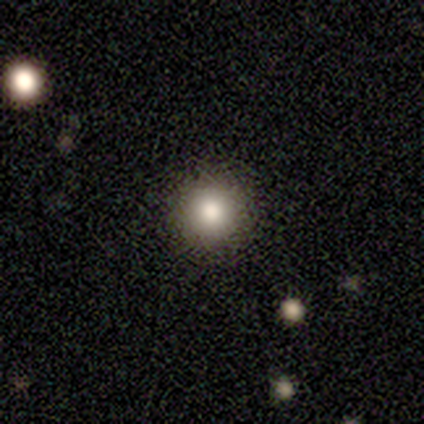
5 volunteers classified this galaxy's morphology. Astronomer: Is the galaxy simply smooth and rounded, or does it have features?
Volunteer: smooth — 80%.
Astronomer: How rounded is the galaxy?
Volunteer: round — 100%.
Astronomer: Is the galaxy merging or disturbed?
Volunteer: none — 100%.